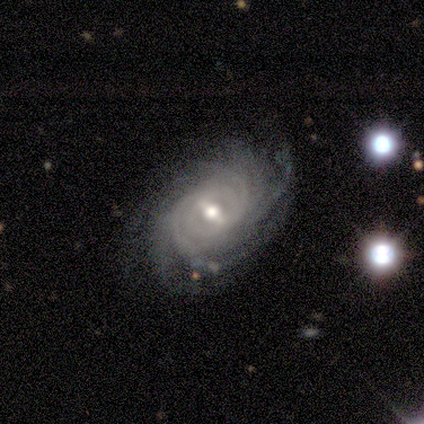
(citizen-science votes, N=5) featured or disk 100%, smooth 0%, star or artifact 0%. Down the decision tree: edge-on disk — no (100%); bar — strong (80%); spiral arms — yes (100%); spiral arm count — can't tell (60%); spiral winding — tight (60%); bulge size — moderate (60%); merging — none (100%).